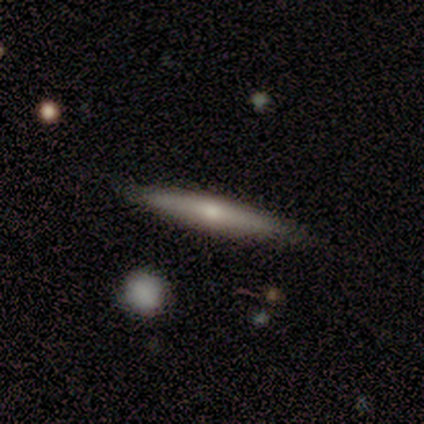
Q: Smooth or featured?
A: smooth (80%); runner-up: featured or disk (20%)
Q: How rounded?
A: cigar-shaped (100%)
Q: Merging?
A: none (80%); runner-up: minor disturbance (20%)